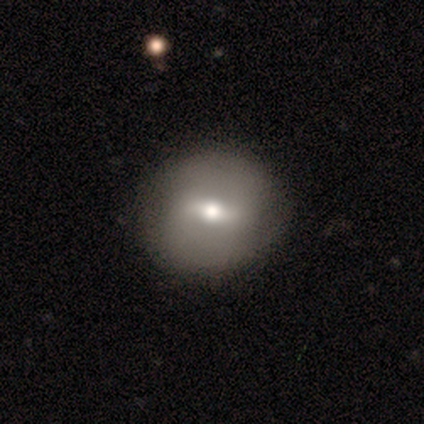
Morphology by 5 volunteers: Smooth or featured: featured or disk — 80% (star or artifact — 20%)
Edge-on disk: no — 100%
Bar: strong — 75% (weak — 25%)
Spiral arms: no — 75% (yes — 25%)
Bulge size: moderate — 50% (tied with small — 50%)
Merging: none — 100%